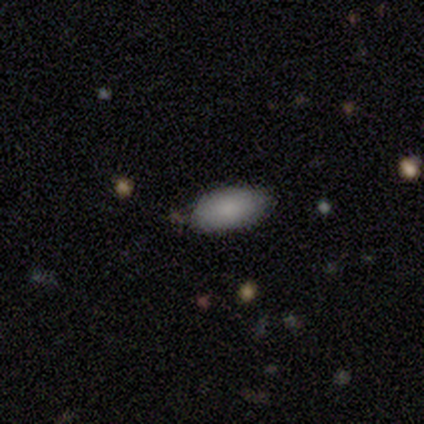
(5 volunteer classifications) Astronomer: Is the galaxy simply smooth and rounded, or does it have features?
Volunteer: smooth — 100%.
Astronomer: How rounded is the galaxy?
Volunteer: in between — 100%.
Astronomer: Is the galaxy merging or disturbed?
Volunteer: none — 100%.